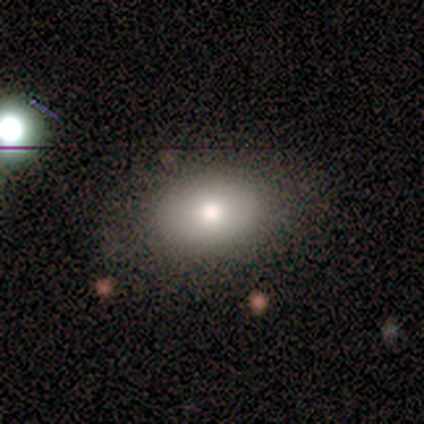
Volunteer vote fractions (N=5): This is likely a smooth galaxy (60%). How rounded: likely in between (67%). Merging: likely none (60%).